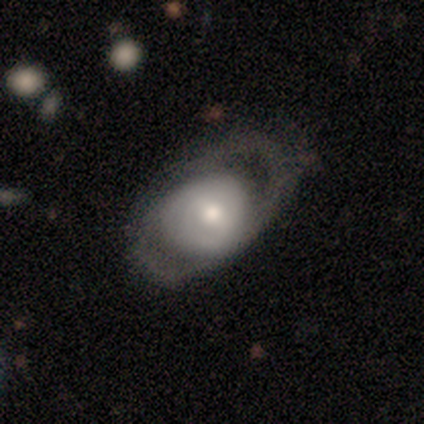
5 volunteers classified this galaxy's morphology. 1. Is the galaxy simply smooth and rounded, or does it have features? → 60% featured or disk, 40% smooth, 0% star or artifact.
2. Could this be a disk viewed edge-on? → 100% no, 0% yes.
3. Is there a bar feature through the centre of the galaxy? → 67% no, 33% strong, 0% weak.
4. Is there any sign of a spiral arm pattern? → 67% yes, 33% no.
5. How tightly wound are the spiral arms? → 50% tight (tied), 50% loose (tied), 0% medium.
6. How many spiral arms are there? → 50% 2 (tied), 50% can't tell (tied), 0% 1, 0% 3, 0% 4, 0% more than 4.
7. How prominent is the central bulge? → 33% dominant (tied), 33% large (tied), 33% small (tied), 0% moderate, 0% none.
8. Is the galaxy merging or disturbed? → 40% minor disturbance (tied), 40% major disturbance (tied), 20% none, 0% merger.